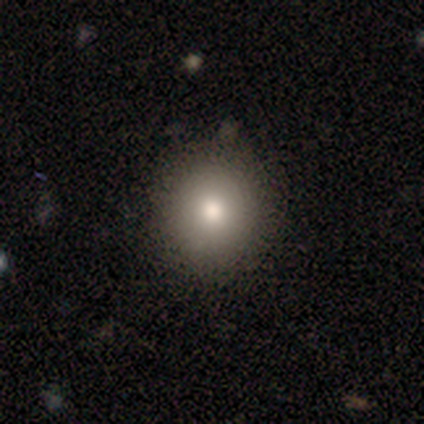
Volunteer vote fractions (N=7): smooth_or_featured: smooth (p=0.86) [alt: star or artifact p=0.14]
how_rounded: round (p=1.00)
merging: none (p=1.00)